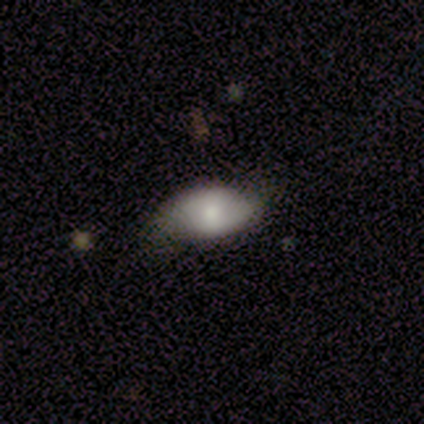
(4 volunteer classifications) smooth 50% (tied), featured or disk 50% (tied), star or artifact 0%. Down the decision tree: how rounded — in between (100%); merging — none (100%).